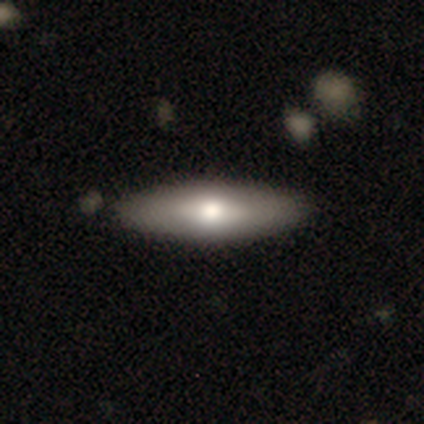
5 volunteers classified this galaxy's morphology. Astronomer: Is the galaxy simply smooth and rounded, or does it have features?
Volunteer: smooth — 80%.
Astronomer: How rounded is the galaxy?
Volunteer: cigar-shaped — 75%.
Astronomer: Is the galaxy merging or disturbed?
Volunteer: none — 100%.